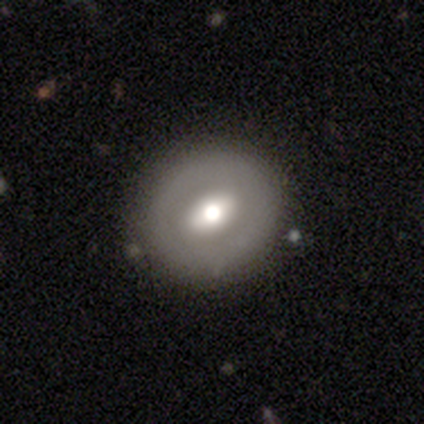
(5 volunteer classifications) smooth_or_featured: smooth (p=0.60) [alt: featured or disk p=0.40]
how_rounded: round (p=0.67) [alt: in between p=0.33]
merging: none (p=0.80) [alt: major disturbance p=0.20]